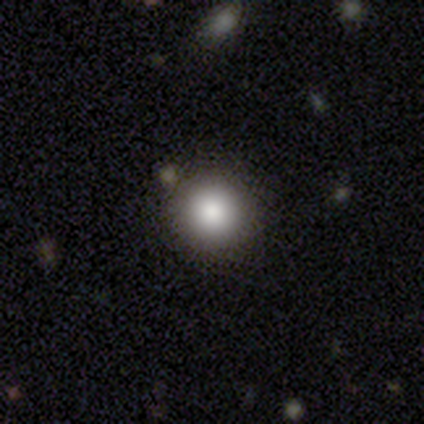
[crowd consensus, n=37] Volunteers were most divided on "smooth or featured": smooth: 81%, star or artifact: 14%, featured or disk: 5%. More confident: how rounded — round (100%); merging — none (97%).